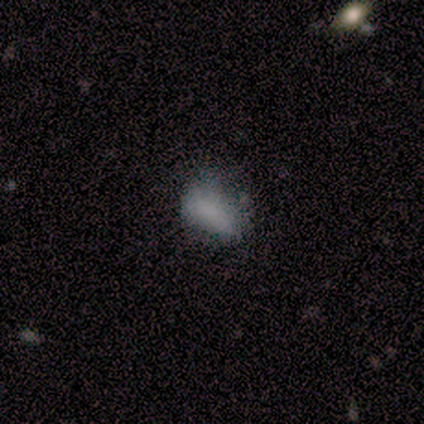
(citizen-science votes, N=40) smooth_or_featured: smooth (p=0.70) [alt: featured or disk p=0.23]
how_rounded: in between (p=0.86) [alt: round p=0.07]
merging: none (p=0.54) [alt: major disturbance p=0.24]